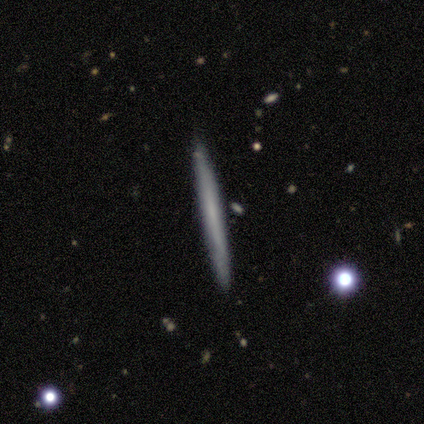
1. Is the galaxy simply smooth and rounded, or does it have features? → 60% smooth, 40% featured or disk, 0% star or artifact.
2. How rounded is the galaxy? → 100% cigar-shaped, 0% round, 0% in between.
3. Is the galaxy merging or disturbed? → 100% none, 0% minor disturbance, 0% major disturbance, 0% merger.